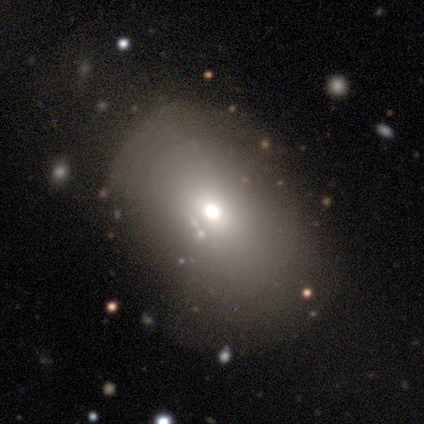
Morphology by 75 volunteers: Smooth or featured?
  - smooth: 67% *
  - featured or disk: 19%
  - star or artifact: 15%
How rounded?
  - in between: 70% *
  - round: 28%
  - cigar-shaped: 2%
Merging?
  - none: 30% *
  - minor disturbance: 11%
  - major disturbance: 8%
  - merger: 3%